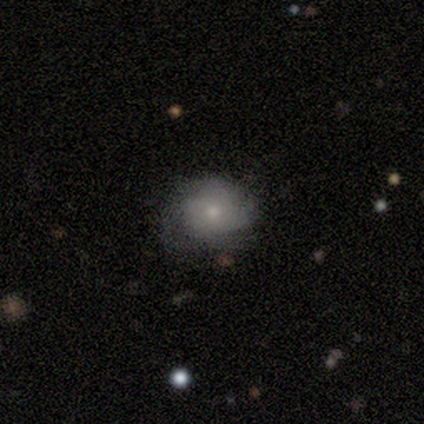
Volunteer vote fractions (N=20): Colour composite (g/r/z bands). It shows a featured or disk galaxy (55%) with no bar (80%), no spiral arms (60%) and a moderate central bulge (50%, tied with small). Merging: none (60%).